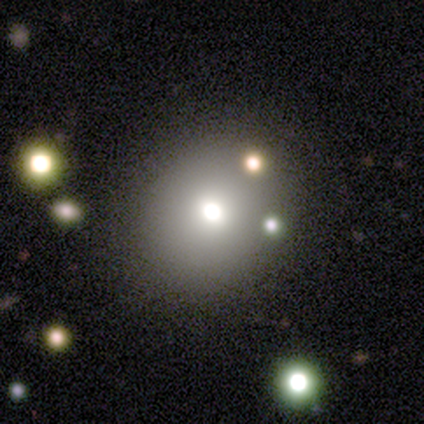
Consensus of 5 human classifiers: smooth_or_featured: smooth (p=0.80) [alt: featured or disk p=0.20]
how_rounded: round (p=1.00)
merging: none (p=1.00)